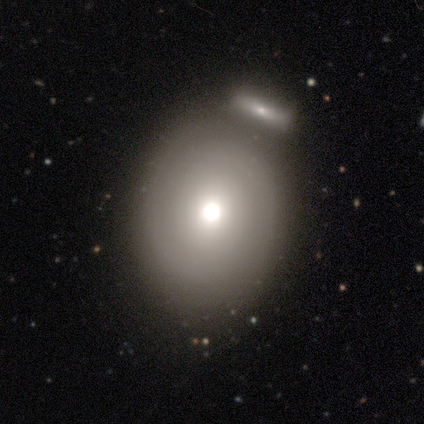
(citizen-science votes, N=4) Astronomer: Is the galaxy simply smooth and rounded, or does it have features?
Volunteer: smooth — 50%, tied with featured or disk at 50%.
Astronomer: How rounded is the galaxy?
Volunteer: in between — 100%.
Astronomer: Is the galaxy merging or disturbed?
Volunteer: none — 75%.